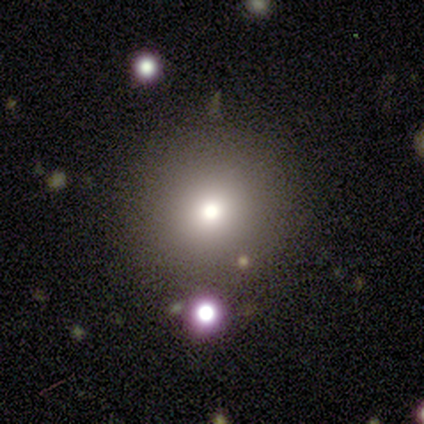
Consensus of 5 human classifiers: smooth-or-featured: smooth: 60% | featured or disk: 40% | star or artifact: 0%
  how-rounded: round: 100% | in between: 0% | cigar-shaped: 0%
  merging: none: 100% | minor disturbance: 0% | major disturbance: 0% | merger: 0%